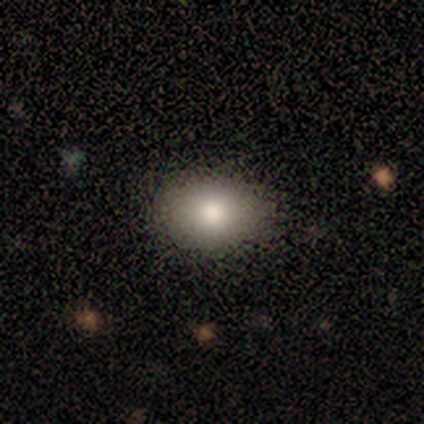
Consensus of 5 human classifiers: smooth_or_featured: smooth (p=0.80) [alt: featured or disk p=0.20]
how_rounded: in between (p=1.00)
merging: none (p=1.00)